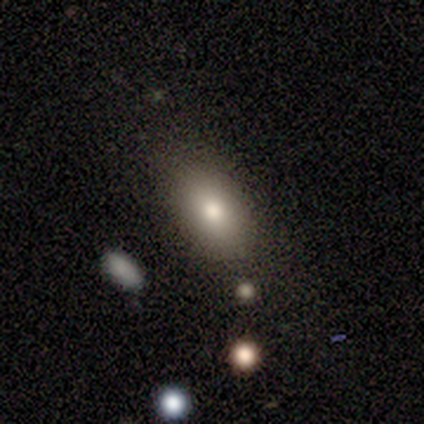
Morphology: type=smooth (80%); roundness=in between (75%); merging=none (100%).